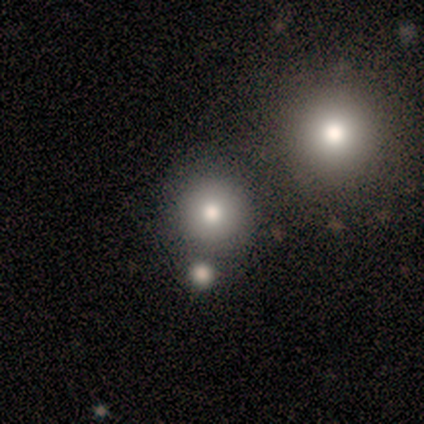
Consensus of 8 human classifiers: This appears to be a smooth galaxy with no disk features (75%) that is round (100%). Merging: minor disturbance (50%).